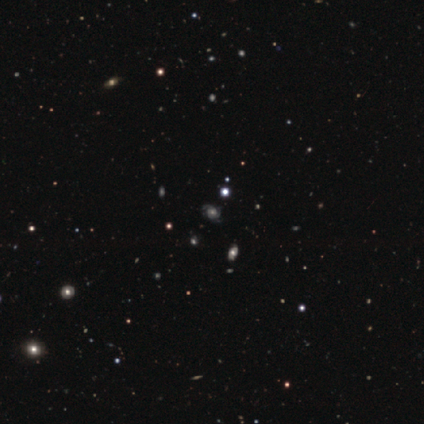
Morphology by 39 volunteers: This is likely a featured or disk galaxy (67%). It is clearly not viewed edge-on (96%). Bar: clearly no (80%). Spiral arm pattern: clearly yes (96%). Spiral arm count: marginally 2 (33%). Spiral winding: possibly medium (54%). Central bulge: possibly moderate (48%). Merging: clearly none (82%).